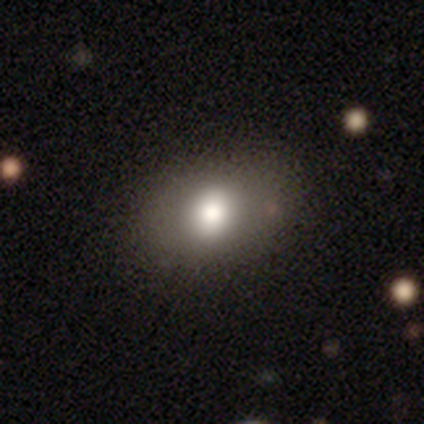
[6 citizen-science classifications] smooth_or_featured: smooth (p=0.83) [alt: featured or disk p=0.17]
how_rounded: in between (p=0.60) [alt: round p=0.40]
merging: none (p=1.00)